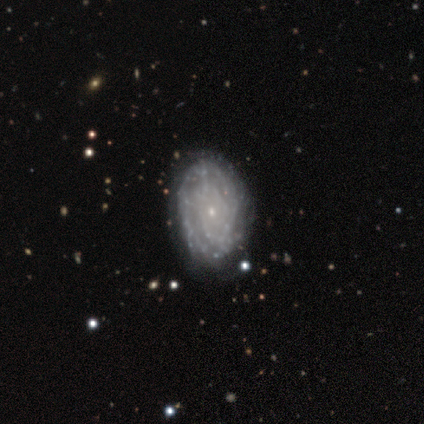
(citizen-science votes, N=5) featured or disk 100%, smooth 0%, star or artifact 0%. Down the decision tree: edge-on disk — no (80%); bar — no (100%); spiral arms — yes (75%); spiral arm count — can't tell (67%); spiral winding — tight (67%); bulge size — small (100%); merging — none (80%).